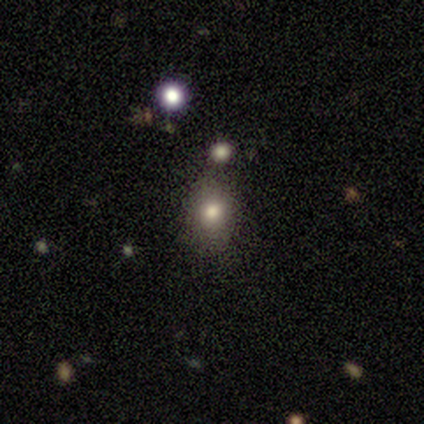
smooth_or_featured: smooth (p=0.85) [alt: star or artifact p=0.13]
how_rounded: in between (p=0.58) [alt: round p=0.42]
merging: none (p=0.79) [alt: minor disturbance p=0.09]